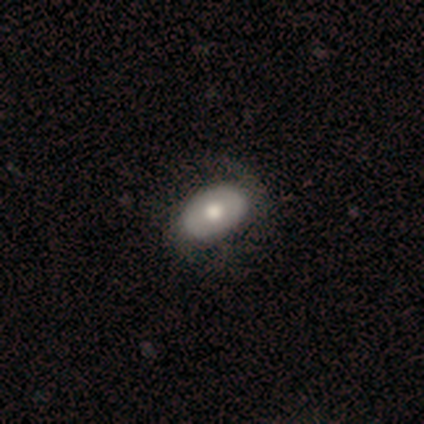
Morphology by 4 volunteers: Smooth or featured? smooth (100%)
How rounded? in between (100%)
Merging? none (50%)